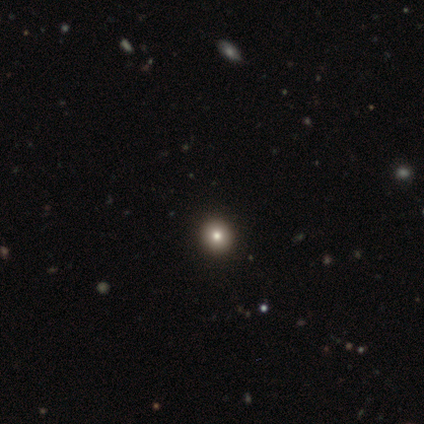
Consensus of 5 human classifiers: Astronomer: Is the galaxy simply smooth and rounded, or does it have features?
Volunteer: smooth — 60% (runner-up: star or artifact, 40%).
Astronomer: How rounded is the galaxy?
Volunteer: round — 100%.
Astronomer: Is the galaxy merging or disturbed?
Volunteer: none — 100%.